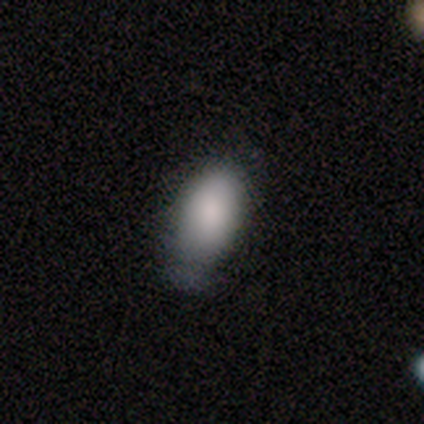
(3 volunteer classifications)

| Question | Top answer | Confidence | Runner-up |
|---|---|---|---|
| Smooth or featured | smooth | 67% | featured or disk (33%) |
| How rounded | in between | 100% | — |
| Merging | minor disturbance | 100% | — |